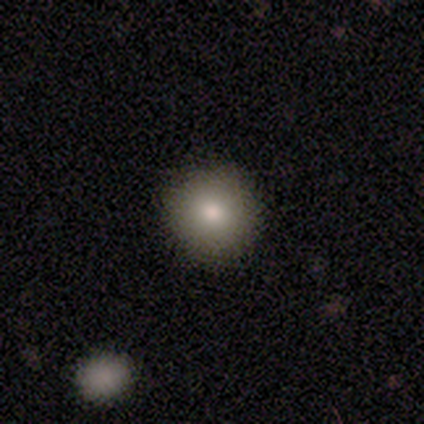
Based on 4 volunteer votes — smooth 75%, featured or disk 25%, star or artifact 0%. Down the decision tree: how rounded — round (100%); merging — none (100%).